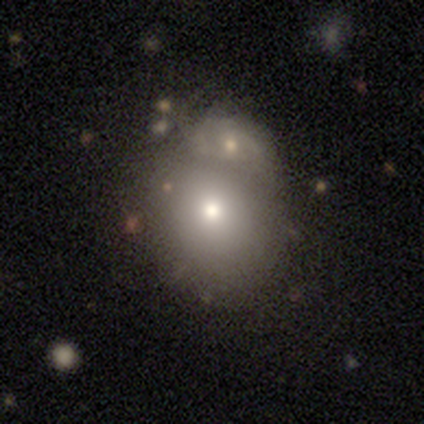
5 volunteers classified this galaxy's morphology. This is marginally a smooth galaxy (40%, tied with featured or disk). How rounded: clearly in between (100%). Merging: possibly minor disturbance (50%).